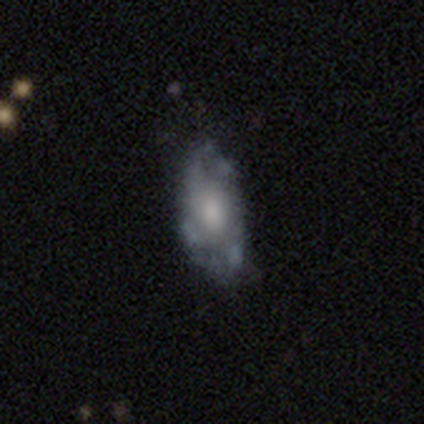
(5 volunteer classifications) A featured or disk galaxy (60%) with no bar (67%), 4 (50%, tied with can't tell) medium (50%, tied with loose) spiral arms (67%) and a moderate central bulge (100%). Merging: none (60%).